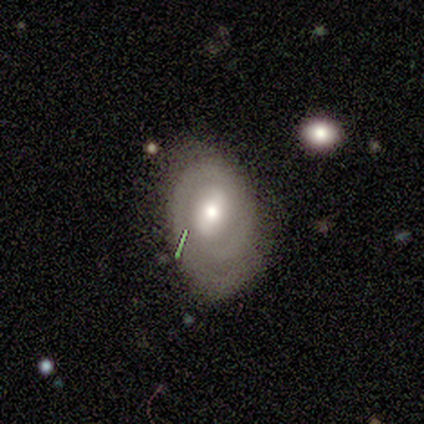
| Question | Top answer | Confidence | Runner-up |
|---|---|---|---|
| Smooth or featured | featured or disk | 83% | smooth (17%) |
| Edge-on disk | no | 100% | — |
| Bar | weak | 80% | no (20%) |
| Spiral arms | yes | 60% | no (40%) |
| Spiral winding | tight | 67% | medium (33%) |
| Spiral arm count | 2 | 100% | — |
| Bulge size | small | 60% | moderate (40%) |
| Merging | none | 50% | tied: minor disturbance (50%) |